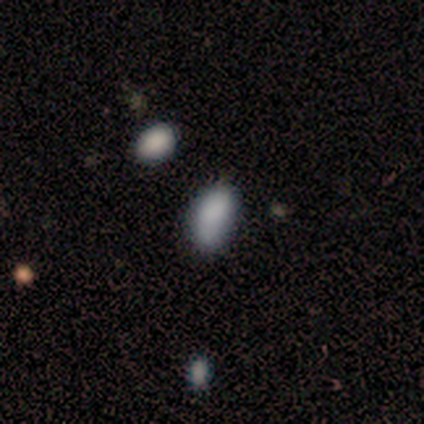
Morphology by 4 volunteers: smooth 100%, featured or disk 0%, star or artifact 0%. Down the decision tree: how rounded — in between (100%); merging — none (75%).